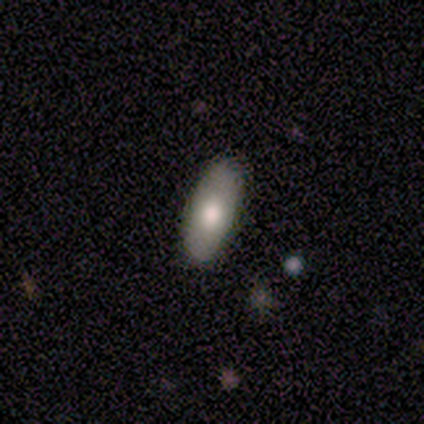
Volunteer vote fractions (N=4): This appears to be a smooth galaxy with no disk features (75%) that is in between round and cigar-shaped (67%). Merging: none (100%).